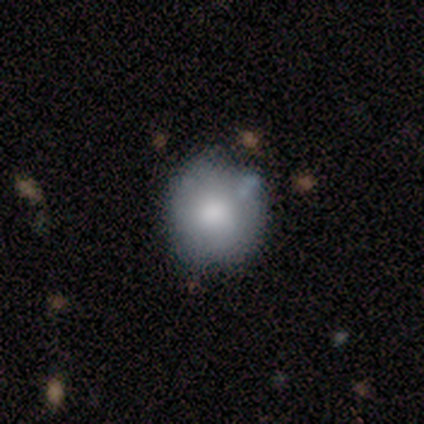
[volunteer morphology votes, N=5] Smooth or featured? smooth (40%, tied with star or artifact)
How rounded? round (100%)
Merging? none (67%)